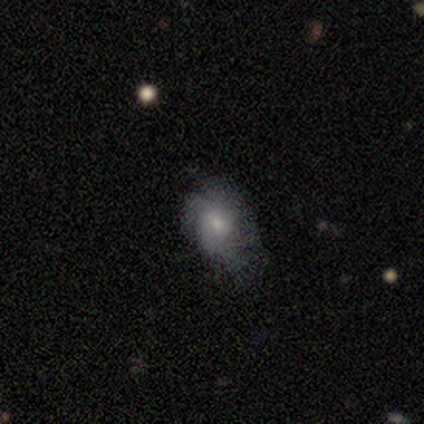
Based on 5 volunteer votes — smooth 60%, featured or disk 20%, star or artifact 20%. Down the decision tree: how rounded — in between (100%); merging — minor disturbance (50%).